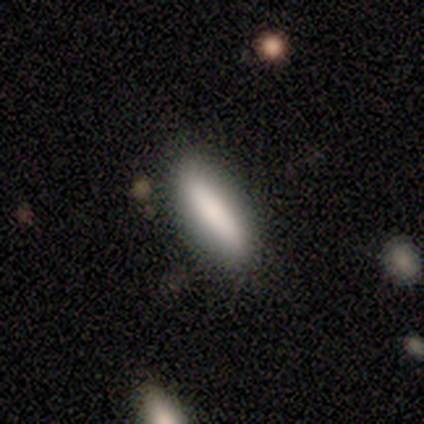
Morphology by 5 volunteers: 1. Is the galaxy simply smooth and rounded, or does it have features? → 80% smooth, 20% featured or disk, 0% star or artifact.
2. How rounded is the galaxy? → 75% in between, 25% cigar-shaped, 0% round.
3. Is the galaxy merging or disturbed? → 80% none, 20% minor disturbance, 0% major disturbance, 0% merger.